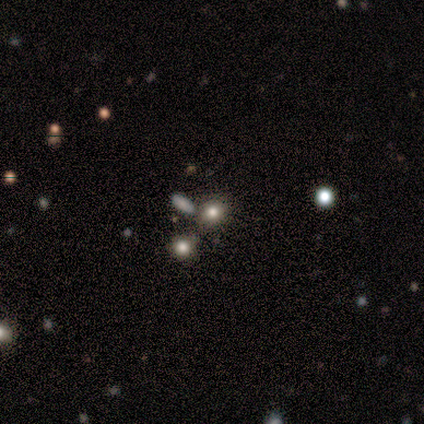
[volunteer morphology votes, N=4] smooth_or_featured: smooth (p=1.00)
how_rounded: round (p=0.75) [alt: in between p=0.25]
merging: none (p=0.75) [alt: merger p=0.25]